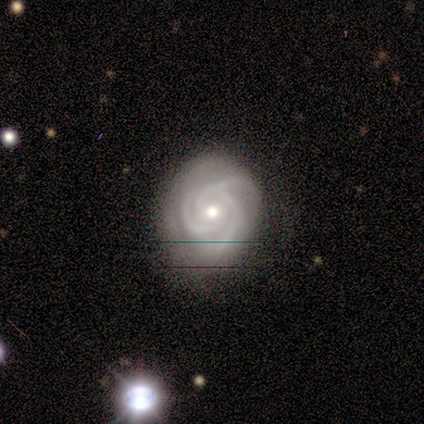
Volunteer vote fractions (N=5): Smooth or featured: featured or disk — 100%
Edge-on disk: no — 100%
Bar: no — 60% (strong — 20%)
Spiral arms: yes — 100%
Spiral winding: tight — 40% (tied with medium — 40%)
Spiral arm count: 3 — 100%
Bulge size: moderate — 60% (small — 40%)
Merging: none — 100%